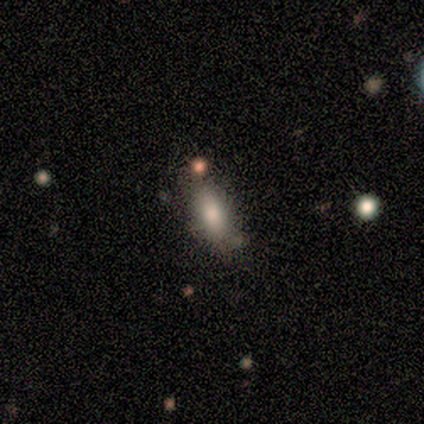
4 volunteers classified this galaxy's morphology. A smooth galaxy with no disk features (100%) that is in between round and cigar-shaped (75%).

Vote fractions:
- Smooth or featured? smooth: 100% / featured or disk: 0% / star or artifact: 0%
- How rounded? in between: 75% / cigar-shaped: 25% / round: 0%
- Merging? none: 100% / minor disturbance: 0% / major disturbance: 0% / merger: 0%